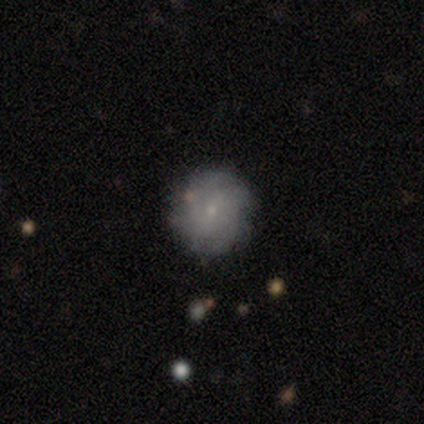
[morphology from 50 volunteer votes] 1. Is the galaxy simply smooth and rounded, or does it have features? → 46% smooth, 44% featured or disk, 10% star or artifact.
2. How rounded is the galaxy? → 96% round, 4% in between, 0% cigar-shaped.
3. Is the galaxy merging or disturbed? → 89% none, 7% minor disturbance, 2% major disturbance, 2% merger.